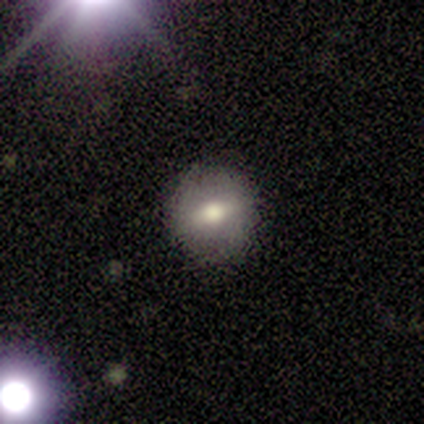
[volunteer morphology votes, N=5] A smooth galaxy with no disk features (60%) that is round (100%).

Vote fractions:
- Smooth or featured? smooth: 60% / featured or disk: 40% / star or artifact: 0%
- How rounded? round: 100% / in between: 0% / cigar-shaped: 0%
- Merging? none: 100% / minor disturbance: 0% / major disturbance: 0% / merger: 0%